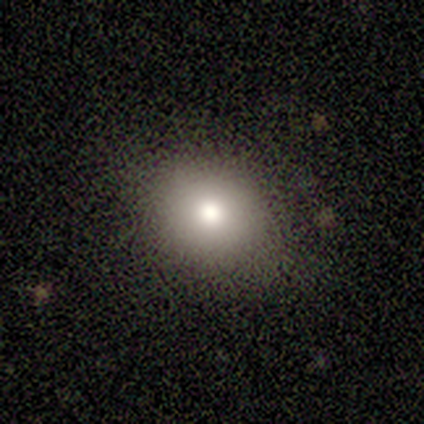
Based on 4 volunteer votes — Smooth or featured? 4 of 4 (100%) said smooth. How rounded? 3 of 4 (75%) said round. Merging? 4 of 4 (100%) said none.